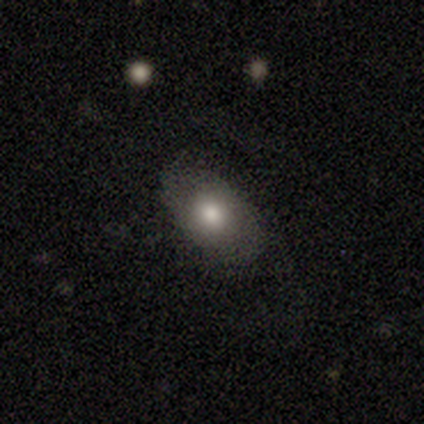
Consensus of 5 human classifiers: smooth-or-featured: smooth: 60% | featured or disk: 40% | star or artifact: 0%
  how-rounded: in between: 67% | cigar-shaped: 33% | round: 0%
  merging: none: 60% | minor disturbance: 40% | major disturbance: 0% | merger: 0%